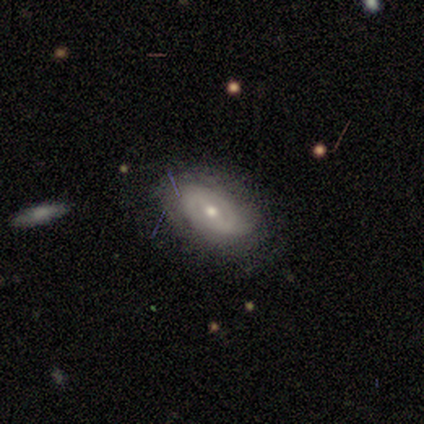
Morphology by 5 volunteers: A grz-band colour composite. It shows a featured or disk galaxy (80%) with no bar (50%), loose (50%) spiral arms (100%) and a moderate central bulge (100%). Merging: none (100%).